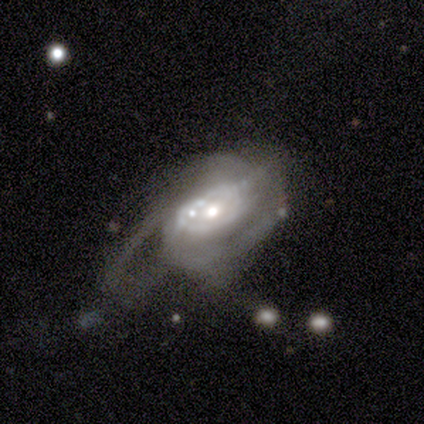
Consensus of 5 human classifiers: A featured or disk galaxy (100%) with no bar (80%), 1 (25%, tied with 2, 3 and can't tell) medium (50%) spiral arms (80%) and a moderate central bulge (60%).

Vote fractions:
- Smooth or featured? featured or disk: 100% / smooth: 0% / star or artifact: 0%
- Edge-on disk? no: 100% / yes: 0%
- Bar? no: 80% / weak: 20% / strong: 0%
- Spiral arms? yes: 80% / no: 20%
- Spiral winding? medium: 50% / tight: 25% / loose: 25%
- Spiral arm count? 1: 25% (tied) / 2: 25% (tied) / 3: 25% (tied) / can't tell: 25% (tied) / 4: 0% / more than 4: 0%
- Bulge size? moderate: 60% / small: 40% / dominant: 0% / large: 0% / none: 0%
- Merging? none: 40% (tied) / major disturbance: 40% (tied) / merger: 20% / minor disturbance: 0%